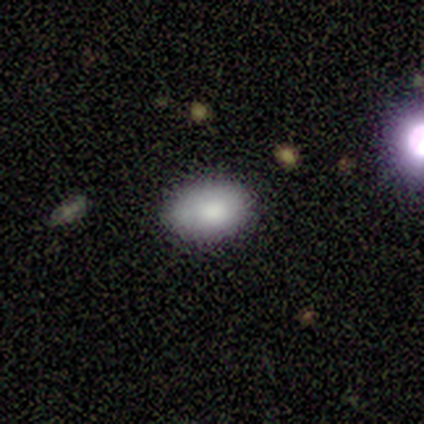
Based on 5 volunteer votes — Smooth or featured? smooth (100%)
How rounded? in between (100%)
Merging? none (60%)